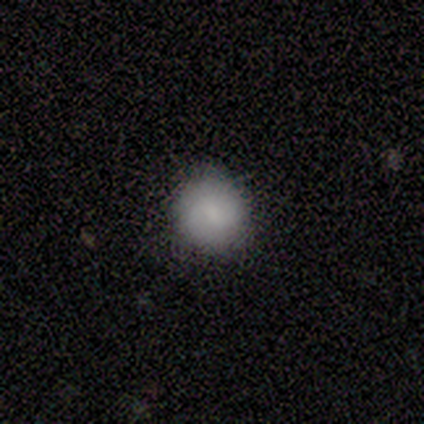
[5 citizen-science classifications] Smooth or featured? 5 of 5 (100%) said smooth. How rounded? 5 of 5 (100%) said round. Merging? 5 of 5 (100%) said none.